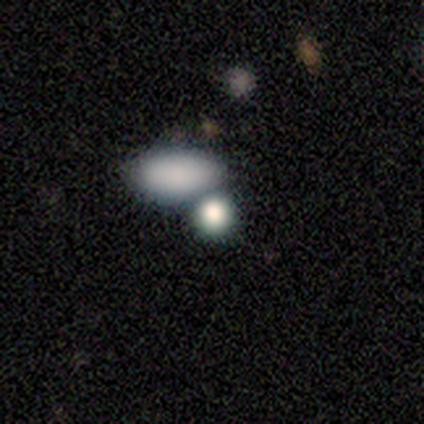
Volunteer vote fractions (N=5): Smooth or featured: smooth — 80% (star or artifact — 20%)
How rounded: round — 50% (tied with in between — 50%)
Merging: none — 75% (merger — 25%)